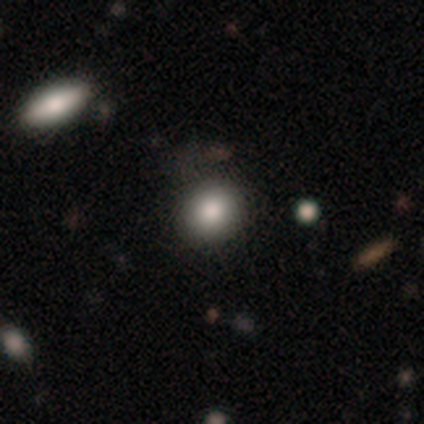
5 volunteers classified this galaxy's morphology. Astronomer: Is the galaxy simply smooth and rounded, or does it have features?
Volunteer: smooth — 100%.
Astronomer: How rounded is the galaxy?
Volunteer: round — 80%.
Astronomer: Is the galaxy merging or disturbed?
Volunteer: none — 100%.